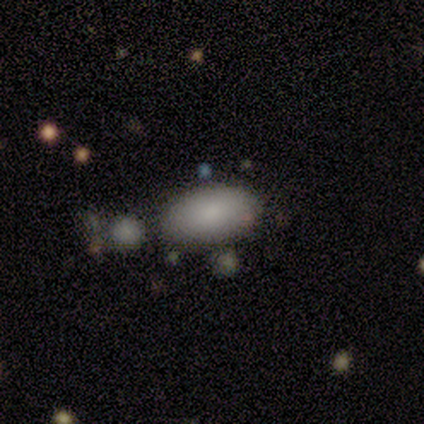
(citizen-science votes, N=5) Q: Smooth or featured?
A: smooth (100%)
Q: How rounded?
A: in between (100%)
Q: Merging?
A: minor disturbance (60%); runner-up: none (40%)